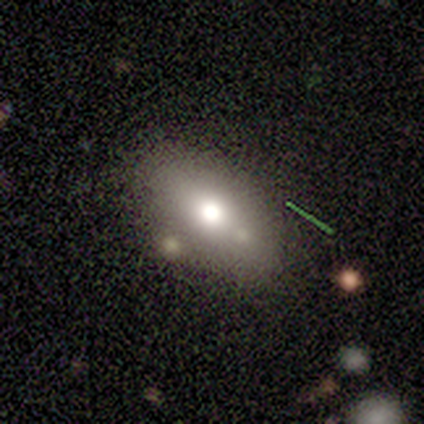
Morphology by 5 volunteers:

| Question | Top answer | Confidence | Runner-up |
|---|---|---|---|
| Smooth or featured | smooth | 80% | star or artifact (20%) |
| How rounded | in between | 100% | — |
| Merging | none | 75% | minor disturbance (25%) |